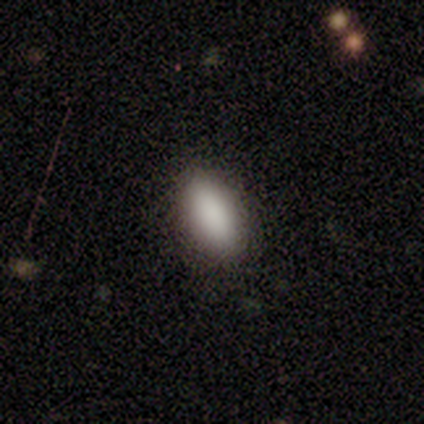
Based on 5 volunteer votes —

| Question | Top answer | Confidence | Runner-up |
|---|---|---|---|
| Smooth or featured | smooth | 100% | — |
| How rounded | in between | 100% | — |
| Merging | none | 100% | — |